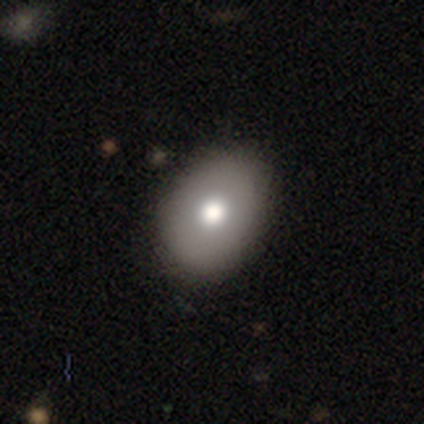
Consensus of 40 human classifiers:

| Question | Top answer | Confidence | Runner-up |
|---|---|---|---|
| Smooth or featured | smooth | 70% | featured or disk (15%) |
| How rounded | in between | 68% | round (32%) |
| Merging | none | 71% | minor disturbance (21%) |